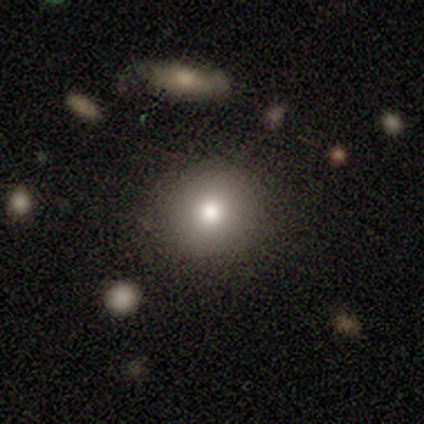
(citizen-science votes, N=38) Morphology: type=smooth (87%); roundness=round (100%); merging=none (91%).